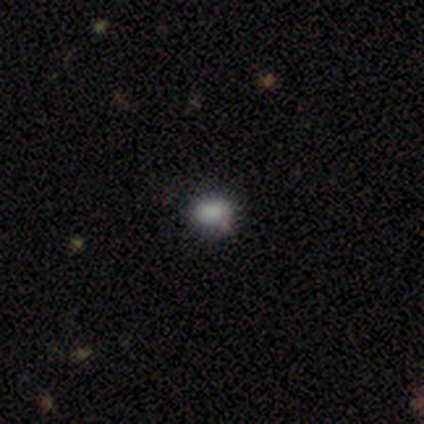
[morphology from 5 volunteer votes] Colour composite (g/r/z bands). It shows a smooth galaxy with no disk features (80%) that is in between round and cigar-shaped (75%). Merging: none (80%).